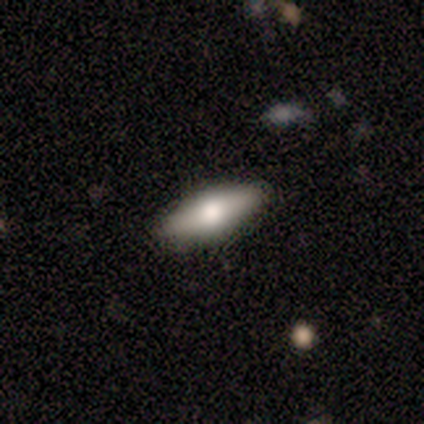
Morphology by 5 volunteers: Smooth or featured?
  - smooth: 40% * (tied)
  - featured or disk: 40% * (tied)
  - star or artifact: 20%
How rounded?
  - in between: 50% * (tied)
  - cigar-shaped: 50% * (tied)
  - round: 0%
Merging?
  - none: 100% *
  - minor disturbance: 0%
  - major disturbance: 0%
  - merger: 0%